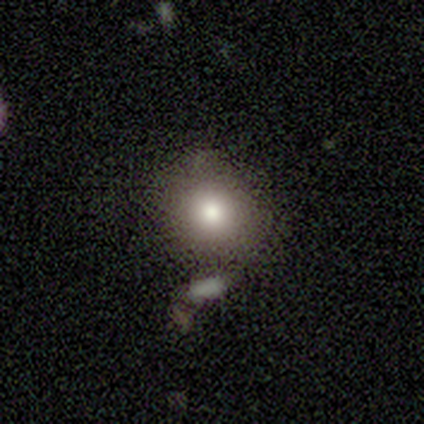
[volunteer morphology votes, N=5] Smooth or featured? 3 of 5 (60%) said smooth. How rounded? 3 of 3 (100%) said round. Merging? 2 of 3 (67%) said none.